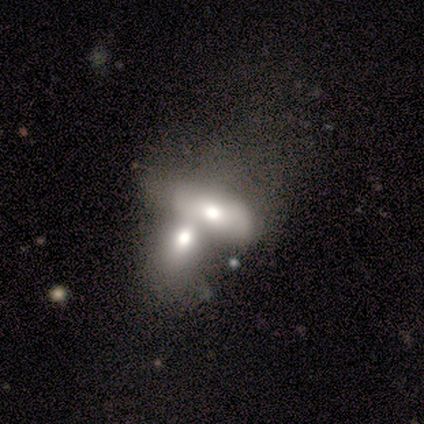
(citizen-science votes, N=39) smooth 56%, featured or disk 33%, star or artifact 10%. Down the decision tree: how rounded — in between (86%); merging — merger (91%).